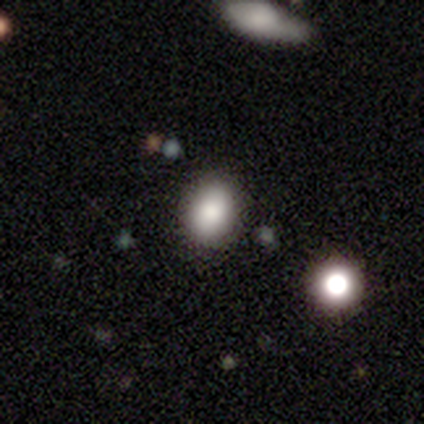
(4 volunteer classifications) Smooth or featured: smooth — 50% (tied with star or artifact — 50%)
How rounded: in between — 100%
Merging: none — 100%